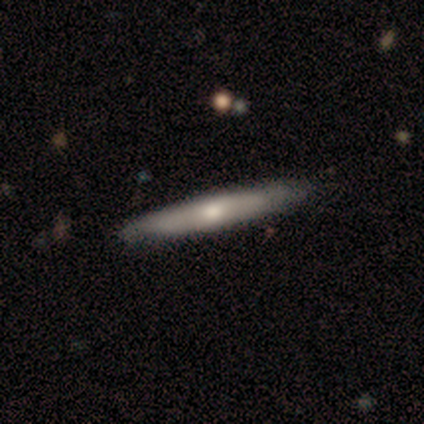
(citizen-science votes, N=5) smooth-or-featured: smooth: 60% | featured or disk: 20% | star or artifact: 20%
  how-rounded: cigar-shaped: 100% | round: 0% | in between: 0%
  merging: none: 100% | minor disturbance: 0% | major disturbance: 0% | merger: 0%